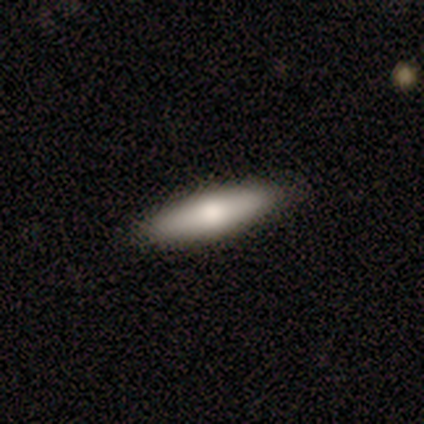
Q: Smooth or featured?
A: smooth (100%)
Q: How rounded?
A: in between (50%); tied with: cigar-shaped (50%)
Q: Merging?
A: none (100%)